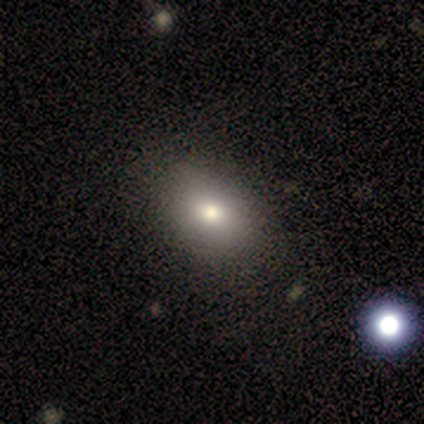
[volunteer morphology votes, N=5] smooth-or-featured: smooth: 60% | star or artifact: 40% | featured or disk: 0%
  how-rounded: round: 67% | in between: 33% | cigar-shaped: 0%
  merging: none: 67% | minor disturbance: 33% | major disturbance: 0% | merger: 0%